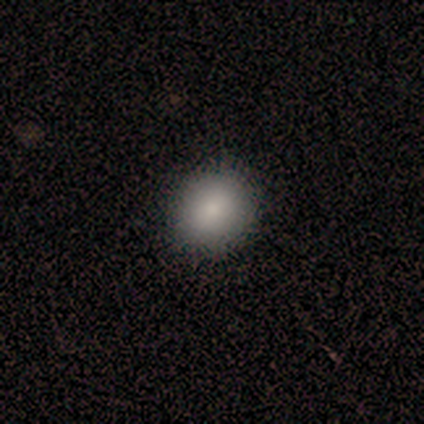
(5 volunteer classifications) Smooth or featured? 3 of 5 (60%) said smooth. How rounded? 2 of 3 (67%) said round. Merging? 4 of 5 (80%) said none.